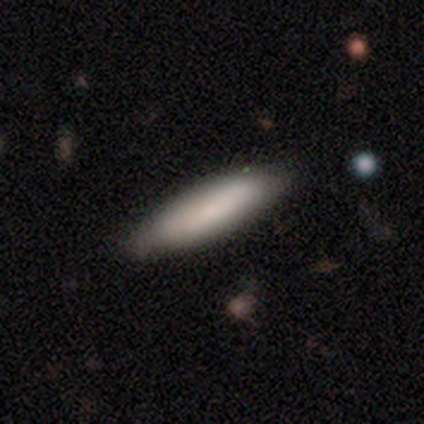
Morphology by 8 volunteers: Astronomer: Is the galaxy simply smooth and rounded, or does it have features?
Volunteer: smooth — 88%.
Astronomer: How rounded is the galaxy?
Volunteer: cigar-shaped — 86%.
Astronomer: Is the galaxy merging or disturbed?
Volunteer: none — 62%.